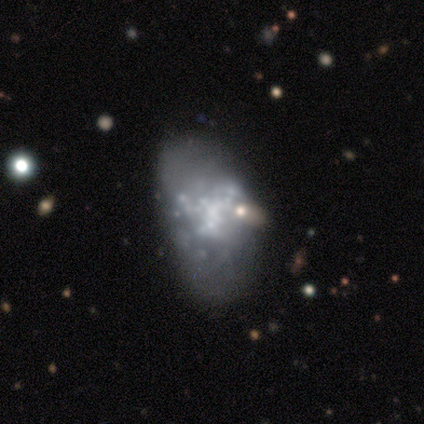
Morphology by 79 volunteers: smooth_or_featured: featured or disk (p=0.80) [alt: smooth p=0.15]
disk_edge_on: no (p=1.00)
bar: no (p=0.89) [alt: weak p=0.10]
has_spiral_arms: no (p=0.94) [alt: yes p=0.06]
bulge_size: none (p=0.67) [alt: small p=0.21]
merging: none (p=0.25) [alt: major disturbance p=0.13]